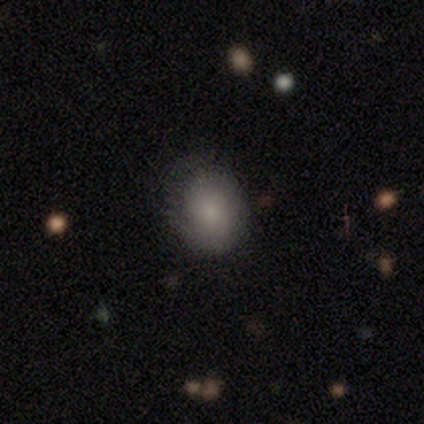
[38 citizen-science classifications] Q: Smooth or featured?
A: smooth (84%); runner-up: featured or disk (13%)
Q: How rounded?
A: round (53%); runner-up: in between (47%)
Q: Merging?
A: none (59%); runner-up: minor disturbance (27%)